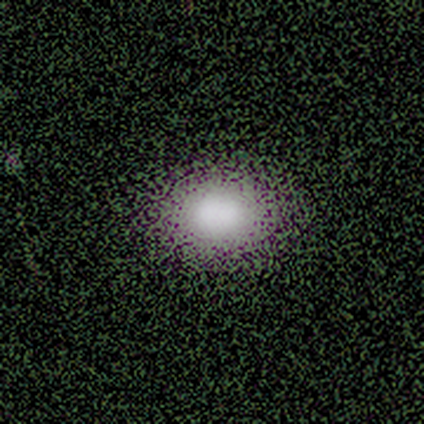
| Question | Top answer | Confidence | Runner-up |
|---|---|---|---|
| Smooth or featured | smooth | 80% | featured or disk (20%) |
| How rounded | in between | 75% | round (25%) |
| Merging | none | 100% | — |